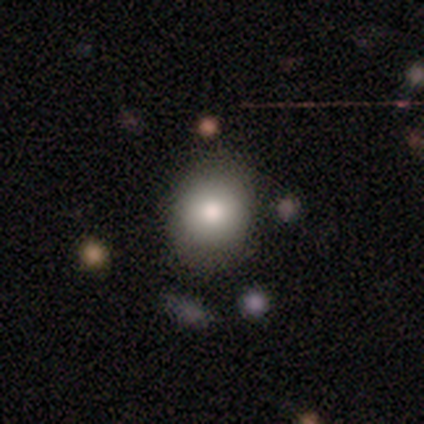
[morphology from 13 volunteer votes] Q: Smooth or featured?
A: smooth (85%); runner-up: featured or disk (15%)
Q: How rounded?
A: round (64%); runner-up: in between (36%)
Q: Merging?
A: none (69%); runner-up: minor disturbance (31%)